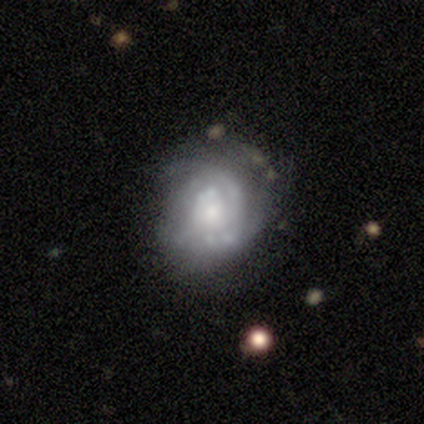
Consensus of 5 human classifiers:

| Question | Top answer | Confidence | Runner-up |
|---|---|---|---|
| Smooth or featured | featured or disk | 100% | — |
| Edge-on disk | no | 100% | — |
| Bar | no | 80% | weak (20%) |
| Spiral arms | yes | 80% | no (20%) |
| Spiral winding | tight | 50% | medium (25%) |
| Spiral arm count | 1 | 25% | tied: 2 (25%), 3 (25%), can't tell (25%) |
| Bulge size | moderate | 80% | none (20%) |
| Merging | minor disturbance | 80% | none (20%) |